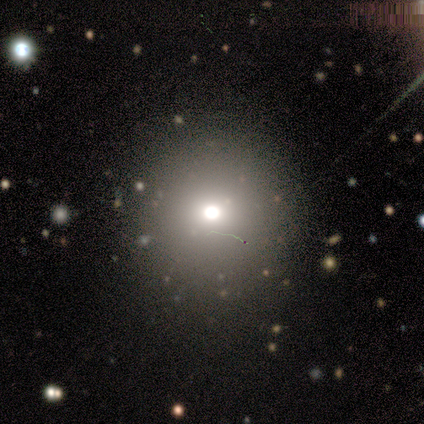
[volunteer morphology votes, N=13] Volunteers were most divided on "merging": none: 73%, minor disturbance: 27%, major disturbance: 0%, merger: 0%. More confident: how rounded — round (100%); smooth or featured — smooth (77%).